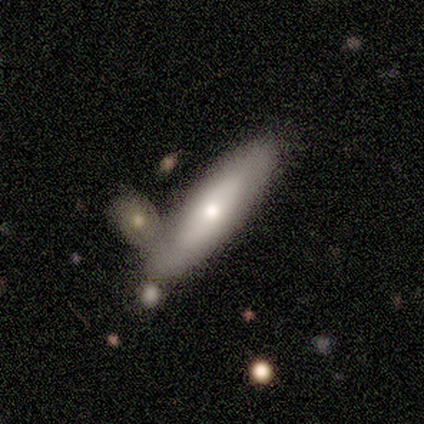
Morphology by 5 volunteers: smooth-or-featured: smooth: 80% | featured or disk: 20% | star or artifact: 0%
  how-rounded: in between: 50% (tied) | cigar-shaped: 50% (tied) | round: 0%
  merging: none: 40% (tied) | merger: 40% (tied) | minor disturbance: 20% | major disturbance: 0%